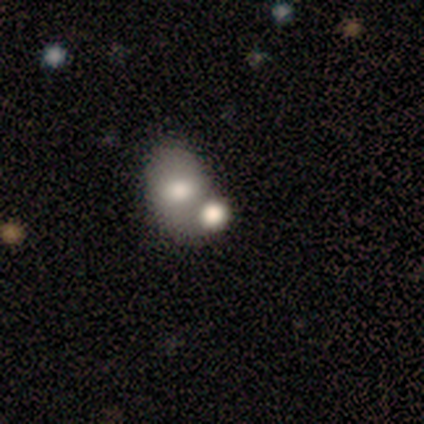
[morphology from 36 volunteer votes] Smooth or featured? smooth (75%)
How rounded? round (56%)
Merging? merger (68%)